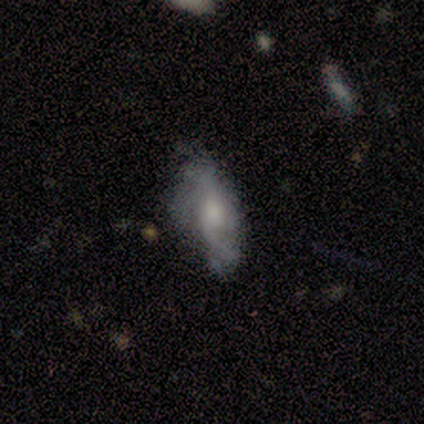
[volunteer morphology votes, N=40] Volunteers were most divided on "spiral arm count": 2: 36%, can't tell: 29%, 3: 14%, 1: 7%, 4: 7%, more than 4: 7%. More confident: edge-on disk — no (86%); spiral arms — yes (74%); bar — no (68%); bulge size — moderate (68%); merging — none (58%); smooth or featured — featured or disk (55%); spiral winding — loose (50%).